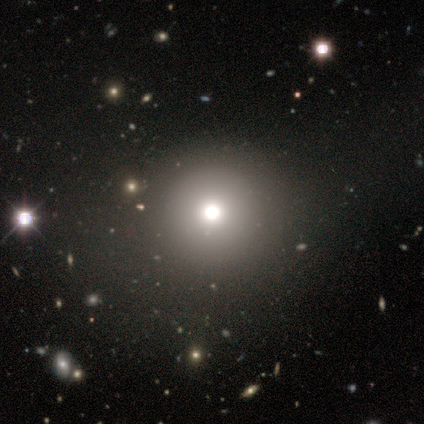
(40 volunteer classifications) A smooth galaxy with no disk features (62%) that is round (88%). Merging: none (52%).